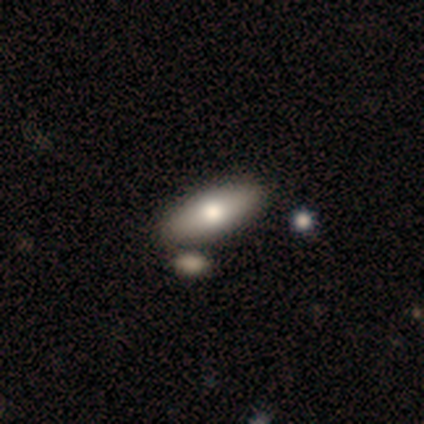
smooth-or-featured: smooth: 81% | featured or disk: 14% | star or artifact: 5%
  how-rounded: in between: 83% | cigar-shaped: 17% | round: 0%
  merging: none: 60% | merger: 11% | major disturbance: 3% | minor disturbance: 0%